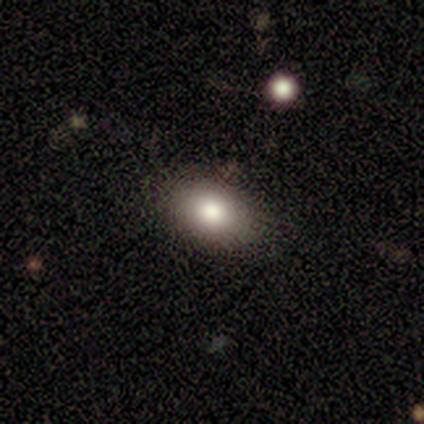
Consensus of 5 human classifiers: Smooth or featured? smooth (80%)
How rounded? in between (75%)
Merging? none (80%)